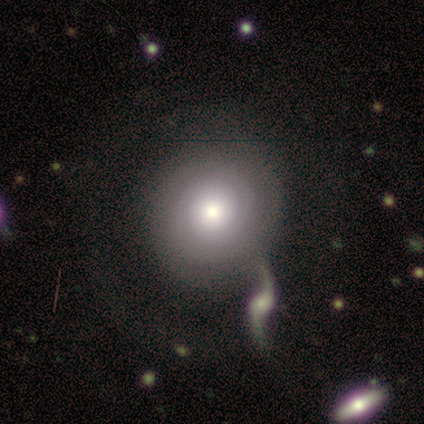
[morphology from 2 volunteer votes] type=featured or disk (100%); edge-on=no (100%); bar=no (100%); spiral arms=yes (100%); winding=tight (100%); arm count=2 (50%, tied with 3); bulge=moderate (50%, tied with small); merging=major disturbance (50%, tied with merger).